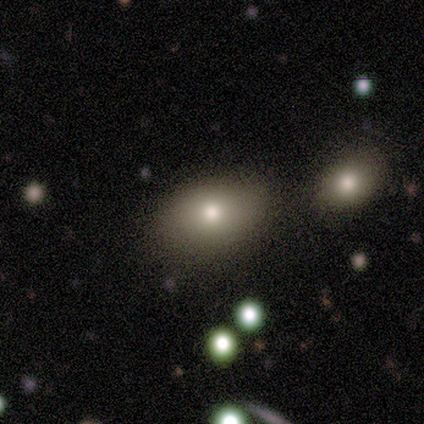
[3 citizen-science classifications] A smooth galaxy with no disk features (100%) that is in between round and cigar-shaped (67%). Merging: none (100%).